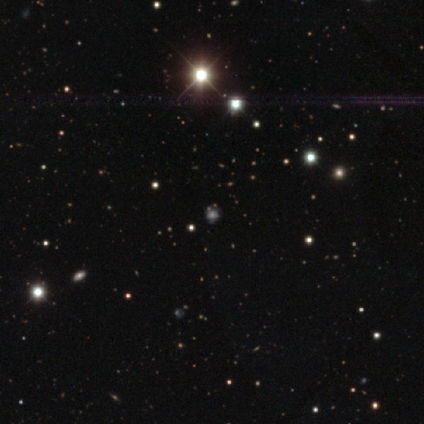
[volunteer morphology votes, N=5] Q: Smooth or featured?
A: star or artifact (80%); runner-up: featured or disk (20%)